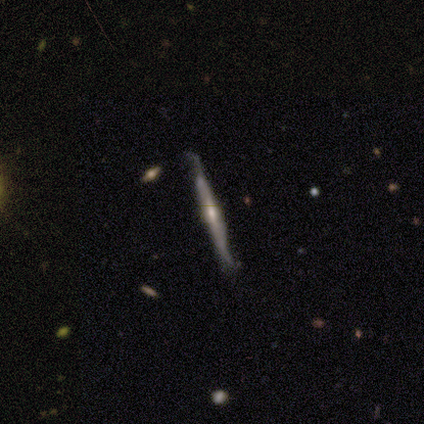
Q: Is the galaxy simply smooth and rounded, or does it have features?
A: featured or disk — 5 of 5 (100%).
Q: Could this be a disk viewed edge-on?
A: yes — 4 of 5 (80%).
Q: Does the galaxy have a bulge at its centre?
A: rounded — 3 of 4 (75%).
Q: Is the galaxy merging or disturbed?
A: minor disturbance — 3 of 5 (60%).